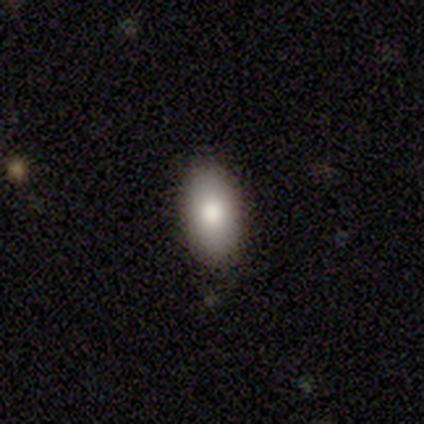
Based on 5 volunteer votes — Smooth or featured?
  - smooth: 60% *
  - featured or disk: 20%
  - star or artifact: 20%
How rounded?
  - in between: 100% *
  - round: 0%
  - cigar-shaped: 0%
Merging?
  - none: 75% *
  - minor disturbance: 25%
  - major disturbance: 0%
  - merger: 0%